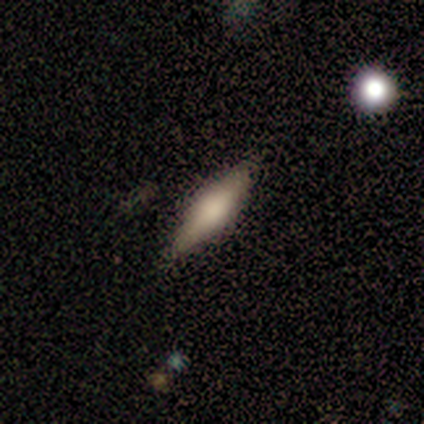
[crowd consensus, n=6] smooth-or-featured: smooth: 83% | featured or disk: 17% | star or artifact: 0%
  how-rounded: cigar-shaped: 60% | in between: 40% | round: 0%
  merging: none: 83% | major disturbance: 17% | minor disturbance: 0% | merger: 0%